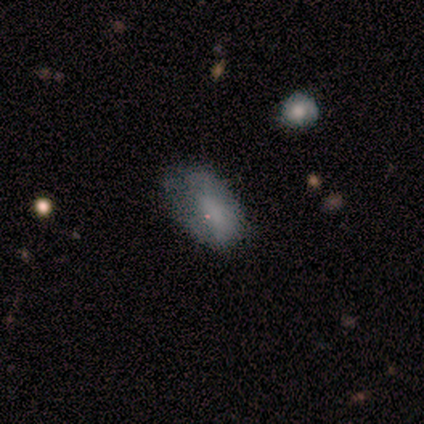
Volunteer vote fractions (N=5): smooth 40% (tied), featured or disk 40% (tied), star or artifact 20%. Down the decision tree: how rounded — round (50%, tied with in between); merging — none (50%, tied with minor disturbance).